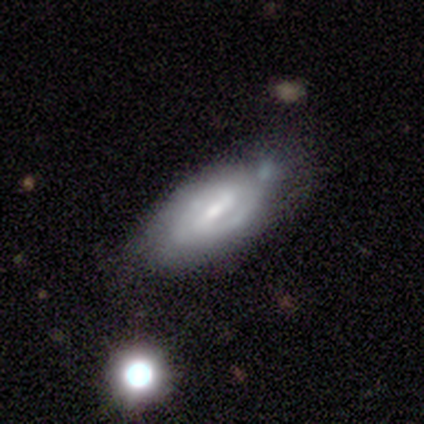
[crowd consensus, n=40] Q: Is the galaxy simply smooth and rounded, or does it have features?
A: featured or disk — 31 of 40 (78%).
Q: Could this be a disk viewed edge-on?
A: no — 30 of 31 (97%).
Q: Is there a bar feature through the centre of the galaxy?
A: weak — 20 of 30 (67%).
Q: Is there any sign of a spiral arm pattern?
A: yes — 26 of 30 (87%).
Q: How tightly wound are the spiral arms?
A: medium — 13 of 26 (50%).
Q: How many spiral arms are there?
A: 2 — 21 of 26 (81%).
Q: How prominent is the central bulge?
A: small — 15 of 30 (50%).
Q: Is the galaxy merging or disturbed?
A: none — 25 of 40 (62%).